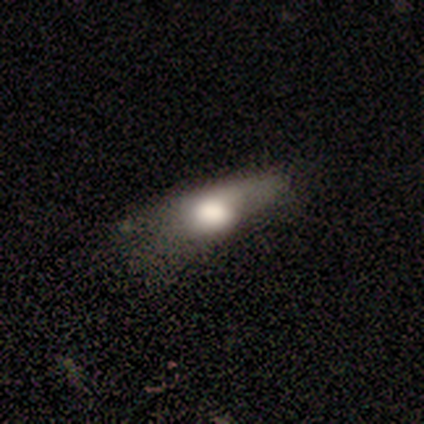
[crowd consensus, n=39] This appears to be a smooth galaxy with no disk features (64%) that is in between round and cigar-shaped (68%). Merging: major disturbance (43%).